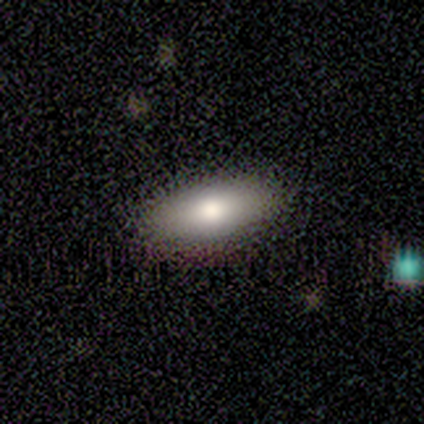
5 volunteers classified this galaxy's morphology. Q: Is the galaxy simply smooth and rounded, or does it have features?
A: smooth — 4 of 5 (80%).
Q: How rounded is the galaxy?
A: in between — 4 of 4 (100%).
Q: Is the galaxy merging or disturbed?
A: none — 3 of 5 (60%).